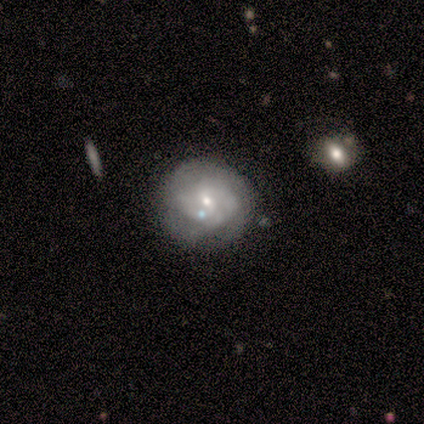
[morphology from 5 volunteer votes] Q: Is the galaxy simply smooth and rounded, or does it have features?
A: featured or disk — 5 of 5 (100%).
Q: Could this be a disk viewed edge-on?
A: no — 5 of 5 (100%).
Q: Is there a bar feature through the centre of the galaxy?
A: no — 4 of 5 (80%).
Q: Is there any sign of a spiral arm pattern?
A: yes — 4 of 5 (80%).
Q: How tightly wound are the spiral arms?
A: medium — 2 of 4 (50%).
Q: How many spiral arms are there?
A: can't tell — 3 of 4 (75%).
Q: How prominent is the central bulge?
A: small — 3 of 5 (60%).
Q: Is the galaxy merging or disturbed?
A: none — 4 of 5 (80%).